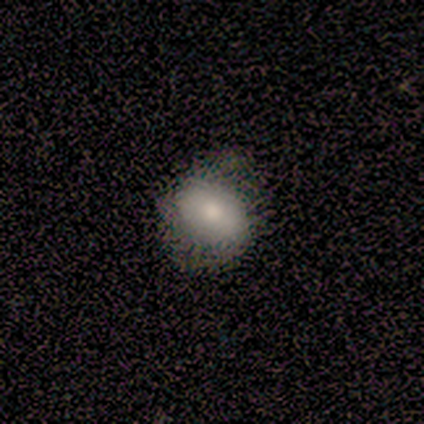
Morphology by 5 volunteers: smooth 100%, featured or disk 0%, star or artifact 0%. Down the decision tree: how rounded — round (60%); merging — none (60%).